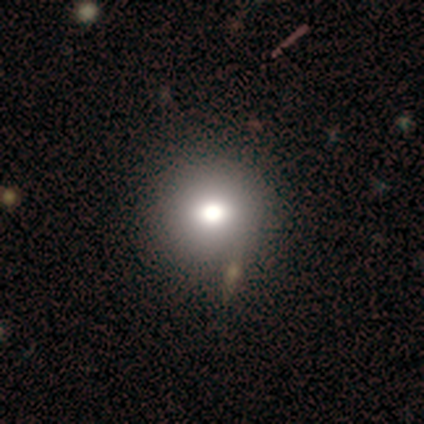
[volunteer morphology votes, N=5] A featured or disk galaxy (60%) with a weak bar (67%), no spiral arms (100%) and a large central bulge (67%). Merging: none (80%).